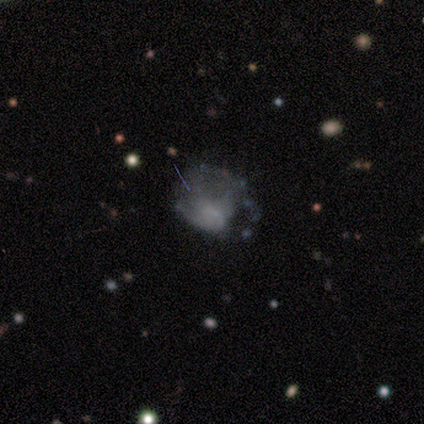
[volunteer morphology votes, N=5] A smooth galaxy with no disk features (80%) that is round (75%). Merging: major disturbance (40%).